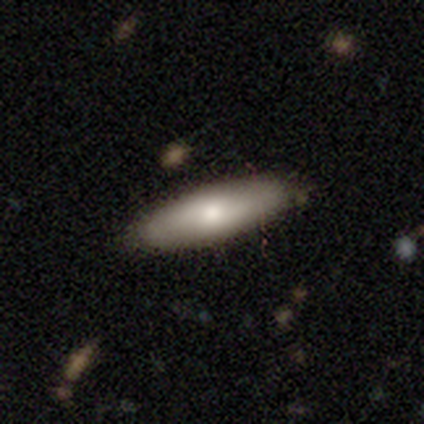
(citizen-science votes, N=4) Smooth or featured?
  - smooth: 75% *
  - star or artifact: 25%
  - featured or disk: 0%
How rounded?
  - cigar-shaped: 67% *
  - in between: 33%
  - round: 0%
Merging?
  - none: 100% *
  - minor disturbance: 0%
  - major disturbance: 0%
  - merger: 0%